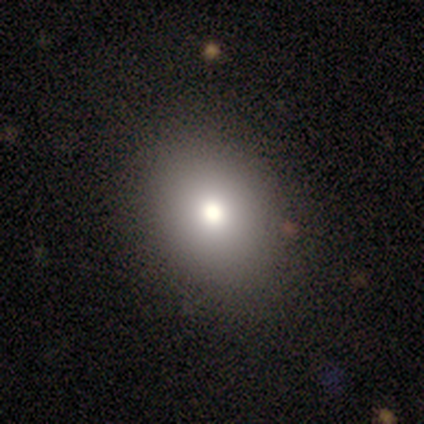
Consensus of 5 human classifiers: smooth_or_featured: smooth (p=0.80) [alt: featured or disk p=0.20]
how_rounded: round (p=0.50) [tied with: in between p=0.50]
merging: none (p=1.00)